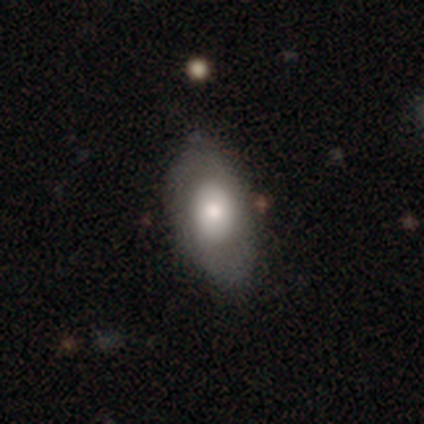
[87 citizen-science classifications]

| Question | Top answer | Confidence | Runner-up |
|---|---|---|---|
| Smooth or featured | smooth | 62% | featured or disk (33%) |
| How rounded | in between | 91% | cigar-shaped (6%) |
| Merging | none | 66% | minor disturbance (25%) |